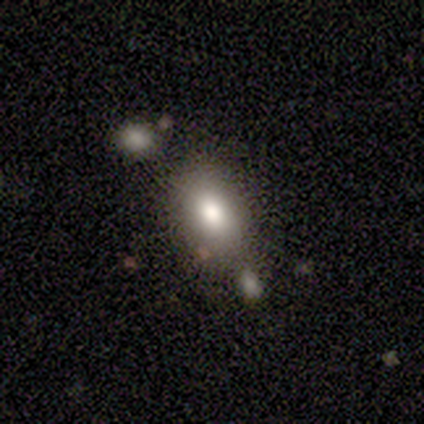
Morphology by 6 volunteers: A smooth galaxy with no disk features (83%) that is in between round and cigar-shaped (100%).

Vote fractions:
- Smooth or featured? smooth: 83% / featured or disk: 17% / star or artifact: 0%
- How rounded? in between: 100% / round: 0% / cigar-shaped: 0%
- Merging? none: 67% / major disturbance: 17% / merger: 17% / minor disturbance: 0%